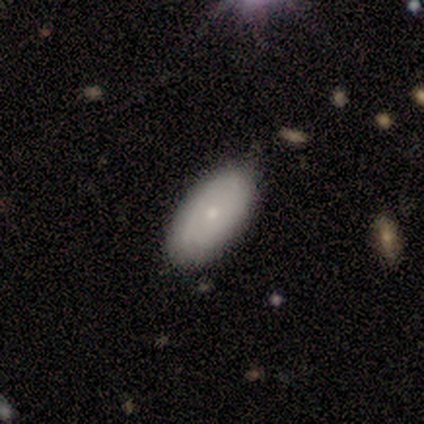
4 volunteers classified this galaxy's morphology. Smooth or featured? smooth (50%)
How rounded? round (50%, tied with in between)
Merging? none (67%)